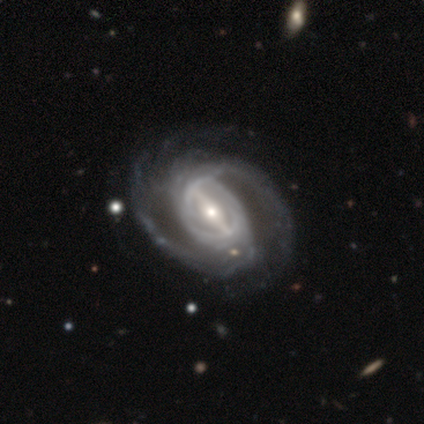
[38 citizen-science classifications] This is clearly a featured or disk galaxy (95%). It is clearly not viewed edge-on (100%). Bar: likely strong (78%). Spiral arm pattern: clearly yes (100%). Spiral arm count: likely 2 (72%). Spiral winding: possibly medium (58%). Central bulge: possibly moderate (58%). Merging: possibly none (49%).